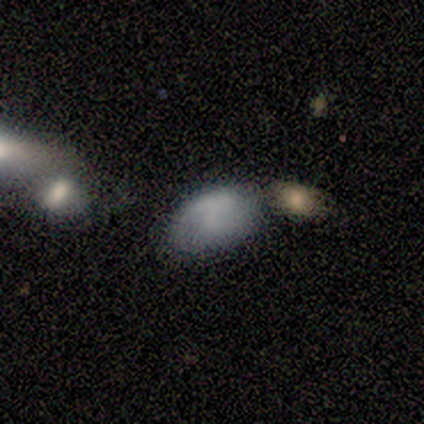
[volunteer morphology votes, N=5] Q: Smooth or featured?
A: smooth (60%); runner-up: featured or disk (20%)
Q: How rounded?
A: in between (67%); runner-up: round (33%)
Q: Merging?
A: merger (50%); runner-up: none (25%)